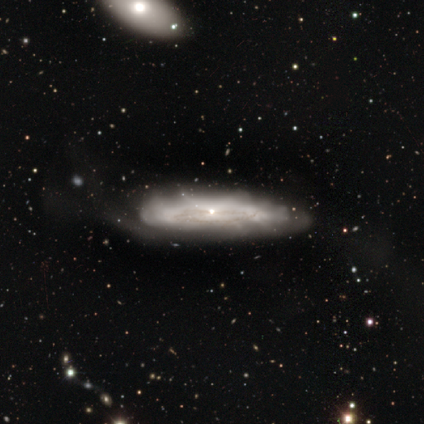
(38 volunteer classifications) featured or disk 74%, smooth 21%, star or artifact 5%. Down the decision tree: edge-on disk — no (61%); bar — no (82%); spiral arms — yes (59%); spiral arm count — can't tell (80%); spiral winding — tight (50%); bulge size — small (88%); merging — none (50%).